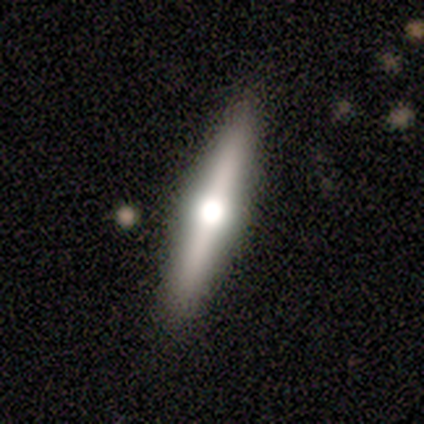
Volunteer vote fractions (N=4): Q: Smooth or featured?
A: featured or disk (75%); runner-up: smooth (25%)
Q: Edge-on disk?
A: yes (100%)
Q: Edge-on bulge?
A: rounded (100%)
Q: Merging?
A: none (100%)